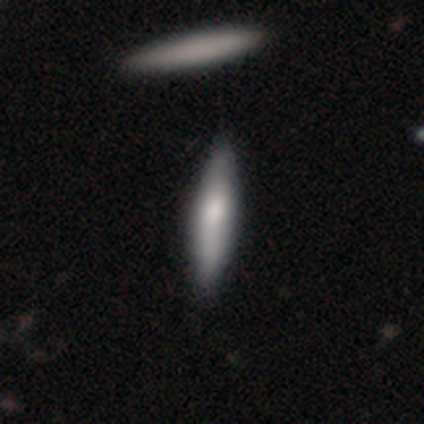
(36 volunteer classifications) smooth 58%, featured or disk 39%, star or artifact 3%. Down the decision tree: how rounded — cigar-shaped (67%); merging — none (66%).